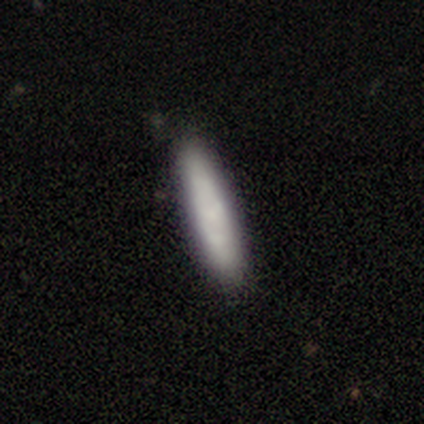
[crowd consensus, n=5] smooth_or_featured: smooth (p=0.60) [alt: featured or disk p=0.40]
how_rounded: cigar-shaped (p=1.00)
merging: none (p=0.80) [alt: minor disturbance p=0.20]